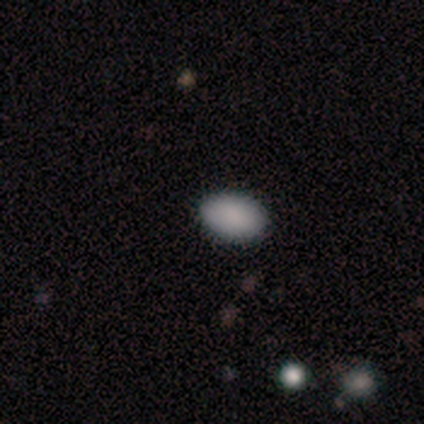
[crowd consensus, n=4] Smooth or featured: smooth — 100%
How rounded: in between — 100%
Merging: none — 100%